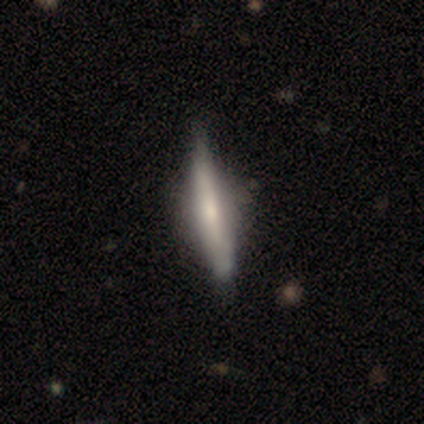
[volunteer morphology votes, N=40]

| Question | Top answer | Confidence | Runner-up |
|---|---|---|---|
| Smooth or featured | featured or disk | 62% | smooth (35%) |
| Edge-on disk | yes | 100% | — |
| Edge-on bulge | rounded | 56% | none (28%) |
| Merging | none | 67% | minor disturbance (5%) |